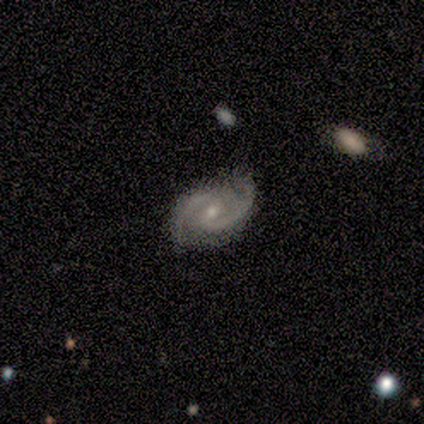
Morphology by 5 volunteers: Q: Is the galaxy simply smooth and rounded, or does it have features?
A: featured or disk — 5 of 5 (100%).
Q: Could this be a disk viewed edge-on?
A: no — 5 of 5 (100%).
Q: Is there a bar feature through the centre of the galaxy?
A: weak — 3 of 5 (60%).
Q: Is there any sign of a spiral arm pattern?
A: yes — 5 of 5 (100%).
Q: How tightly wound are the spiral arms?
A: tight — 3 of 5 (60%).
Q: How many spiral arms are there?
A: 2 — 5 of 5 (100%).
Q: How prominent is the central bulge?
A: small — 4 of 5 (80%).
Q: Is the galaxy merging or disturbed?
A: none — 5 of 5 (100%).